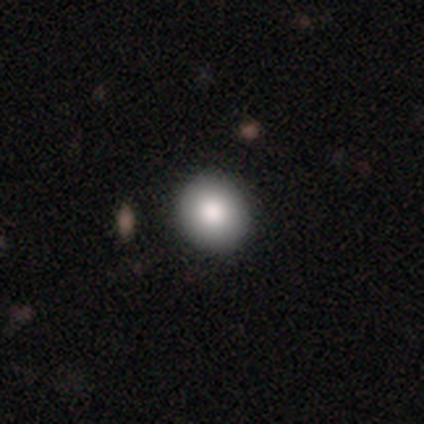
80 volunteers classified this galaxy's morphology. Smooth or featured: smooth — 86% (featured or disk — 12%)
How rounded: round — 96% (in between — 4%)
Merging: none — 44% (minor disturbance — 3%)